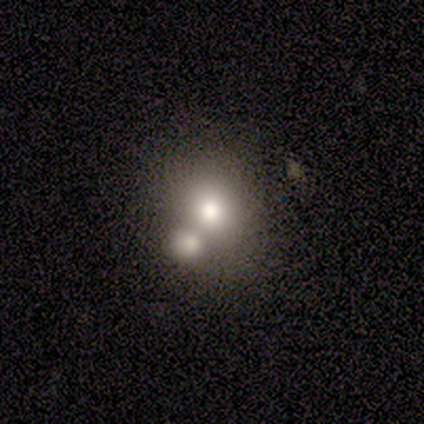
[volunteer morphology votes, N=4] type=smooth (75%); roundness=round (100%); merging=none (50%).